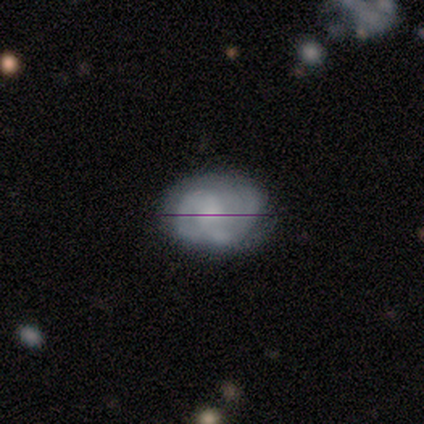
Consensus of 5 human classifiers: Smooth or featured? featured or disk (60%)
Edge-on disk? no (100%)
Bar? no (67%)
Spiral arms? yes (100%)
Spiral winding? loose (67%)
Spiral arm count? 1 (33%, tied with 2 and can't tell)
Bulge size? moderate (67%)
Merging? none (100%)